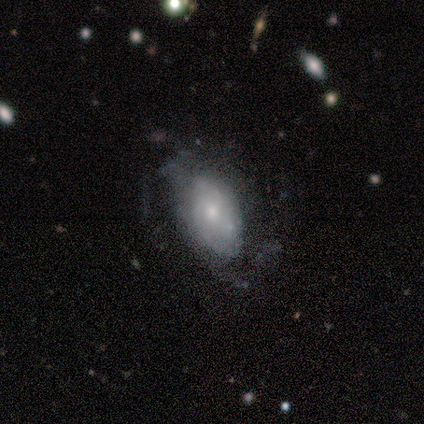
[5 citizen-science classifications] featured or disk 60%, smooth 40%, star or artifact 0%. Down the decision tree: edge-on disk — no (100%); bar — no (100%); spiral arms — no (67%); bulge size — small (67%); merging — minor disturbance (60%).